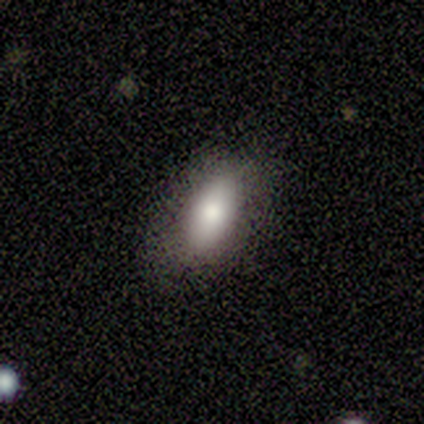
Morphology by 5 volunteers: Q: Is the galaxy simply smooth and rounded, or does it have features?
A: smooth — 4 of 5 (80%).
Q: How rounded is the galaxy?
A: in between — 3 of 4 (75%).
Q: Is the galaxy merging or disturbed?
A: none — 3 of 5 (60%).